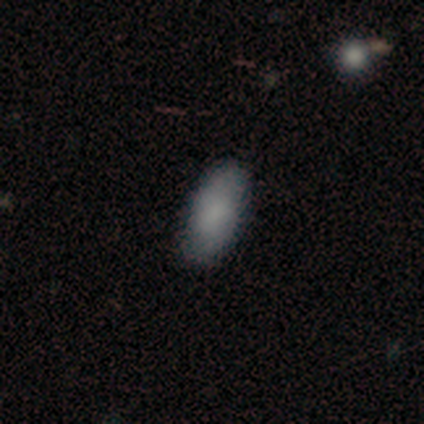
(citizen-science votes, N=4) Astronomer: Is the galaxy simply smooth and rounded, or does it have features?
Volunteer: smooth — 75%.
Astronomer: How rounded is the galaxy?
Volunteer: in between — 100%.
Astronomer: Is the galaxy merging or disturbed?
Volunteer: none — 100%.